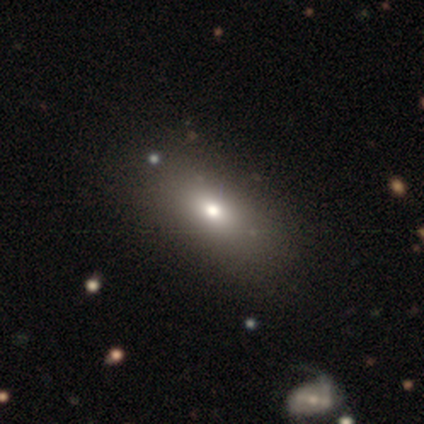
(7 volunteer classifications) Smooth or featured: smooth — 71% (featured or disk — 29%)
How rounded: in between — 80% (round — 20%)
Merging: none — 100%